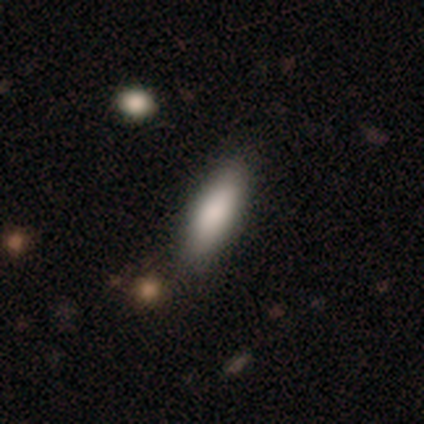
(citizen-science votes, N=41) Smooth or featured? smooth (85%)
How rounded? in between (63%)
Merging? none (65%)